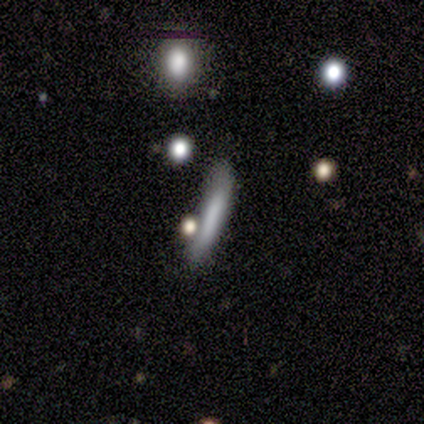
smooth 50% (tied), featured or disk 50% (tied), star or artifact 0%. Down the decision tree: how rounded — cigar-shaped (67%); merging — none (100%).